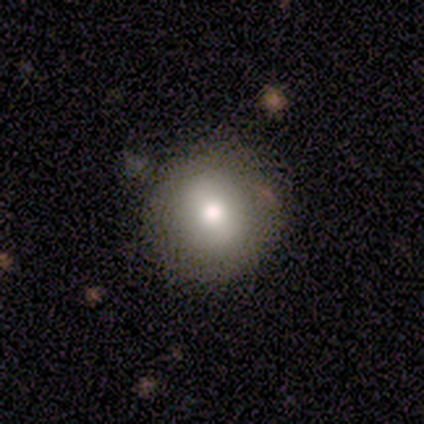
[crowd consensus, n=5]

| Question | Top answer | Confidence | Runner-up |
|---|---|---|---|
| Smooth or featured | smooth | 80% | featured or disk (20%) |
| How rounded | round | 50% | tied: in between (50%) |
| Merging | none | 80% | minor disturbance (20%) |